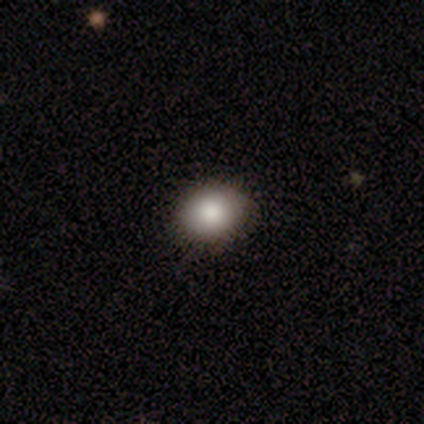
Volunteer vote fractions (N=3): Smooth or featured: smooth — 100%
How rounded: round — 100%
Merging: none — 100%